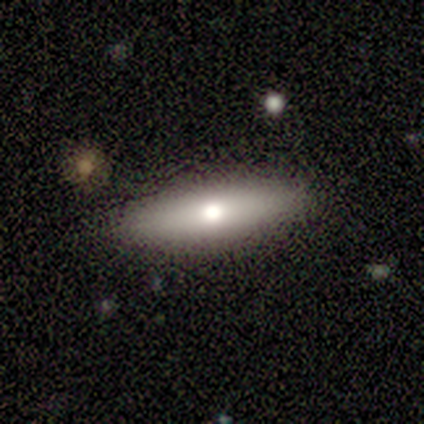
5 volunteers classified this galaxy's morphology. Smooth or featured? 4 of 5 (80%) said featured or disk. Edge-on disk? 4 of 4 (100%) said yes. Edge-on bulge? 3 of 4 (75%) said rounded. Merging? 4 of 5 (80%) said none.